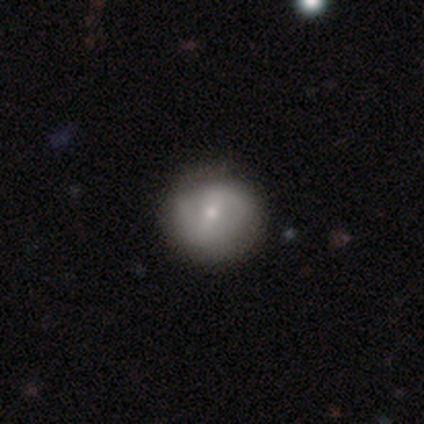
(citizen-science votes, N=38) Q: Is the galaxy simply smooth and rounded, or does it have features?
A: featured or disk — 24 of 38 (63%).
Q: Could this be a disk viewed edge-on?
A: no — 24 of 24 (100%).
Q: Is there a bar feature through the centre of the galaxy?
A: weak — 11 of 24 (46%).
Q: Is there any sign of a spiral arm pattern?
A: yes — 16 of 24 (67%).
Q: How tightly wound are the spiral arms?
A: tight — 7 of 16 (44%).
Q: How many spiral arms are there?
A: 2 — 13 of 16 (81%).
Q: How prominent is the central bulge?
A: small — 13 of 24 (54%).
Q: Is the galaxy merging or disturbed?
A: none — 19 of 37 (51%).